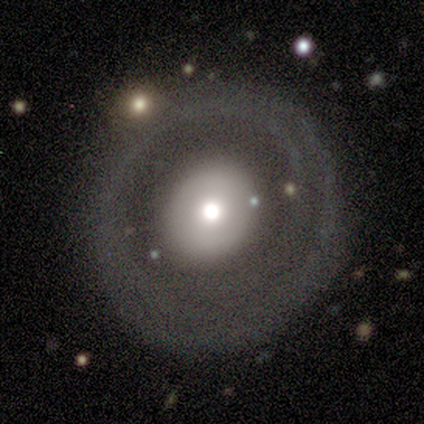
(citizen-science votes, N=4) Volunteers were most divided on "smooth or featured" (2-way tie): smooth: 50%, featured or disk: 50%, star or artifact: 0%. More confident: how rounded — round (100%); merging — none (75%).